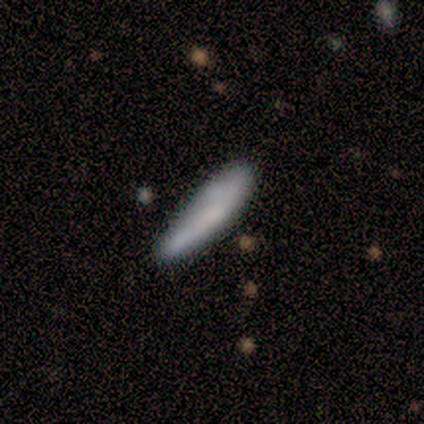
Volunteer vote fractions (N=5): smooth-or-featured: smooth: 60% | featured or disk: 40% | star or artifact: 0%
  how-rounded: cigar-shaped: 67% | in between: 33% | round: 0%
  merging: none: 100% | minor disturbance: 0% | major disturbance: 0% | merger: 0%